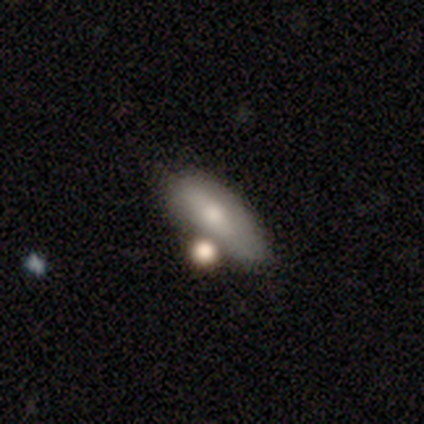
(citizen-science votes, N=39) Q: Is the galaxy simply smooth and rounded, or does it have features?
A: smooth — 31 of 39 (79%).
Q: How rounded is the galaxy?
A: in between — 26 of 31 (84%).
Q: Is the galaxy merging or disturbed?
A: none — 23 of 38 (61%).